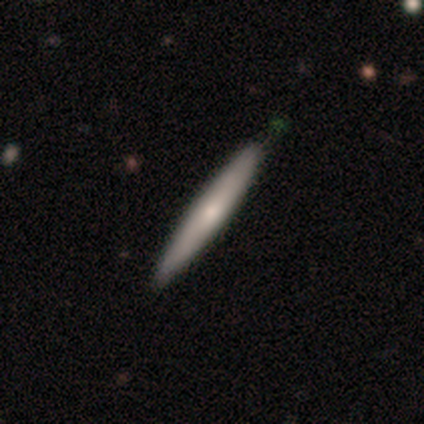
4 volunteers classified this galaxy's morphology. A smooth galaxy with no disk features (50%) that is cigar-shaped (100%).

Vote fractions:
- Smooth or featured? smooth: 50% / featured or disk: 25% / star or artifact: 25%
- How rounded? cigar-shaped: 100% / round: 0% / in between: 0%
- Merging? none: 100% / minor disturbance: 0% / major disturbance: 0% / merger: 0%